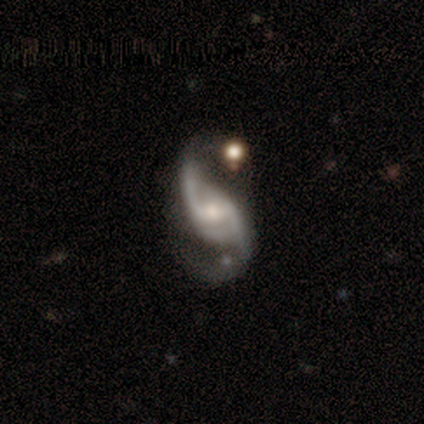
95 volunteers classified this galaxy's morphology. smooth-or-featured: featured or disk: 85% | smooth: 7% | star or artifact: 7%
  disk-edge-on: no: 98% | yes: 2%
    bar: weak: 56% | no: 27% | strong: 18%
    has-spiral-arms: yes: 99% | no: 1%
      spiral-winding: loose: 81% | medium: 14% | tight: 5%
      spiral-arm-count: 2: 96% | can't tell: 3% | 4: 1% | 1: 0% | 3: 0% | more than 4: 0%
    bulge-size: small: 54% | moderate: 39% | large: 4% | none: 3% | dominant: 0%
  merging: none: 55% | major disturbance: 22% | minor disturbance: 20% | merger: 3%